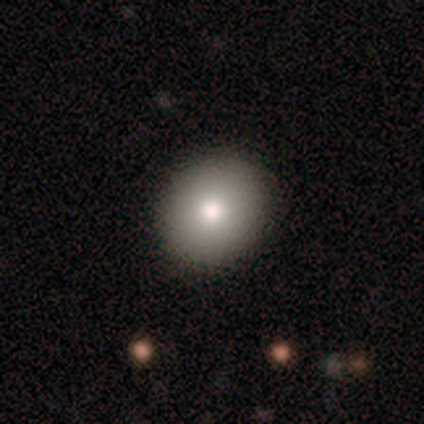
Smooth or featured? 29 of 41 (71%) said smooth. How rounded? 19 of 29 (66%) said round. Merging? 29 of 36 (81%) said none.